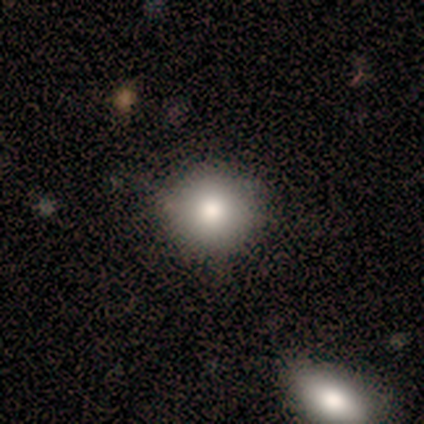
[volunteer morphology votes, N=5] Overall: smooth (100%). How rounded: round (80%). Merging: none (80%).